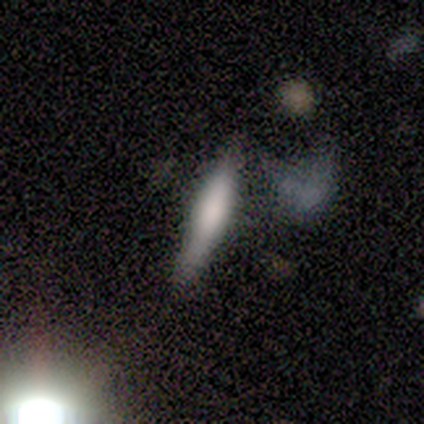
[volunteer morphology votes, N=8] Overall: smooth (62%; featured or disk 25%). How rounded: cigar-shaped (80%). Merging: none (86%).